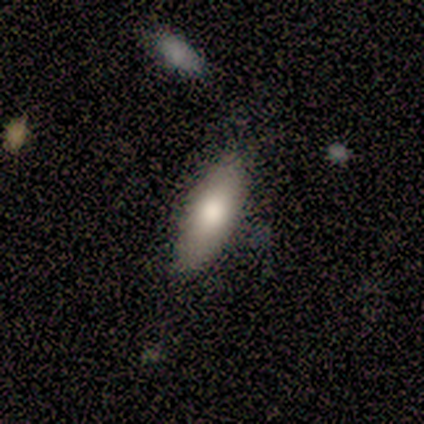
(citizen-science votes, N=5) smooth 80%, star or artifact 20%, featured or disk 0%. Down the decision tree: how rounded — in between (50%, tied with cigar-shaped); merging — none (100%).